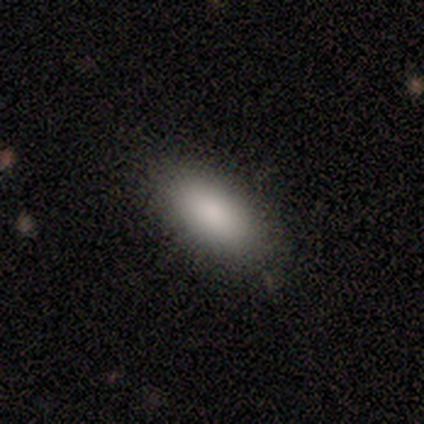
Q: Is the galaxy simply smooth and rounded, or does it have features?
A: smooth — 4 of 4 (100%).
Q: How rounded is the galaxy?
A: in between — 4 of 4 (100%).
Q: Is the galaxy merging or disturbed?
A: none — 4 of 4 (100%).